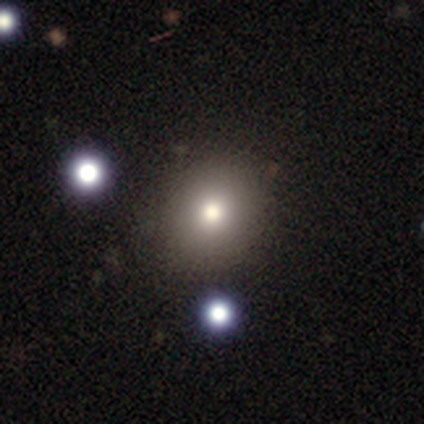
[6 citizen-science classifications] Smooth or featured? smooth (100%)
How rounded? round (100%)
Merging? none (83%)